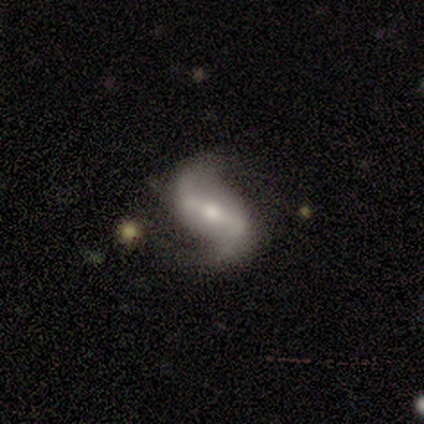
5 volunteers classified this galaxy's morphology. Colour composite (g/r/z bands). It shows a featured or disk galaxy (80%) with a strong bar (75%), 2 (100%) loose (100%) spiral arms (100%) and a moderate central bulge (75%). Merging: none (60%).